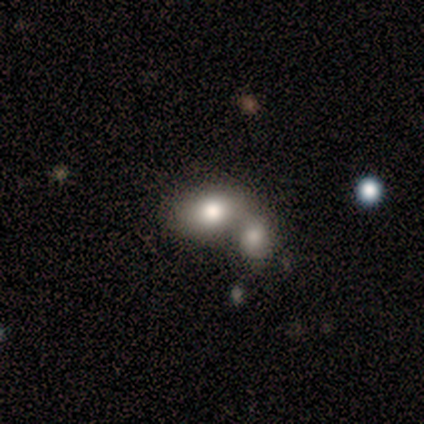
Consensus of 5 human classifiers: Q: Smooth or featured?
A: smooth (80%); runner-up: featured or disk (20%)
Q: How rounded?
A: in between (75%); runner-up: cigar-shaped (25%)
Q: Merging?
A: merger (80%); runner-up: minor disturbance (20%)